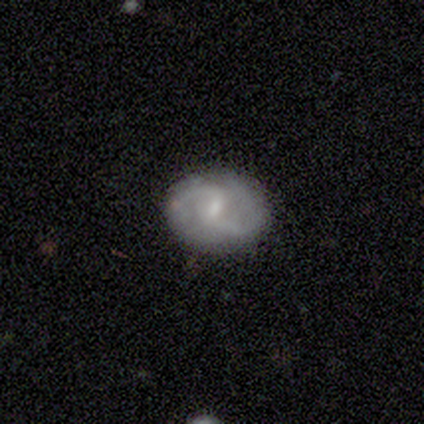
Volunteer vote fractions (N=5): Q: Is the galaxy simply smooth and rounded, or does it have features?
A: featured or disk — 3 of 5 (60%).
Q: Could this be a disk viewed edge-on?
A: no — 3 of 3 (100%).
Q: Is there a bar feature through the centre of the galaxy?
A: weak — 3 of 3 (100%).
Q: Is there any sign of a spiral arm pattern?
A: yes — 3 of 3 (100%).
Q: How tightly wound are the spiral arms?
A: medium — 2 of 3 (67%).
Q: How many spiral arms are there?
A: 2 — 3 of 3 (100%).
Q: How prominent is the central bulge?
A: small — 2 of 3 (67%).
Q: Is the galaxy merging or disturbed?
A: none — 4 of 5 (80%).